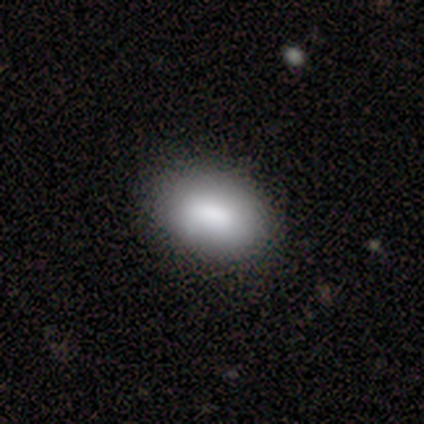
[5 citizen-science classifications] smooth_or_featured: smooth (p=0.60) [alt: star or artifact p=0.40]
how_rounded: in between (p=1.00)
merging: none (p=1.00)